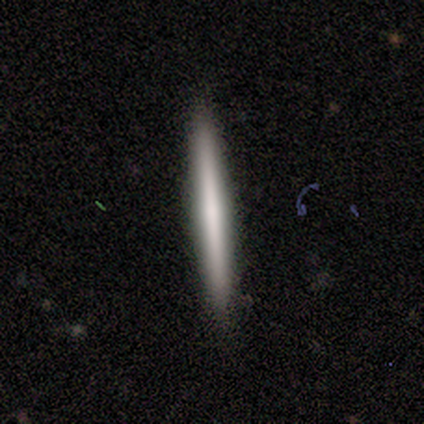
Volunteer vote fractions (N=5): Smooth or featured: smooth — 40% (tied with star or artifact — 40%)
How rounded: cigar-shaped — 100%
Merging: none — 100%